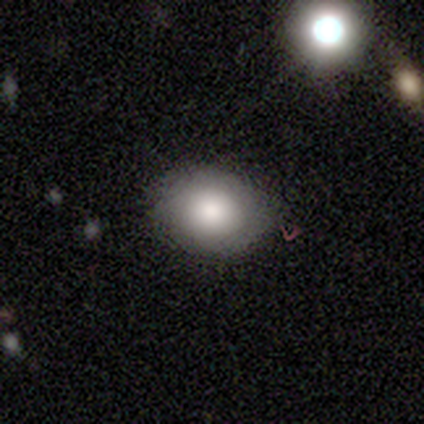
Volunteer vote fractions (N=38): smooth-or-featured: smooth: 79% | featured or disk: 16% | star or artifact: 5%
  how-rounded: in between: 73% | round: 27% | cigar-shaped: 0%
  merging: none: 81% | minor disturbance: 14% | major disturbance: 6% | merger: 0%